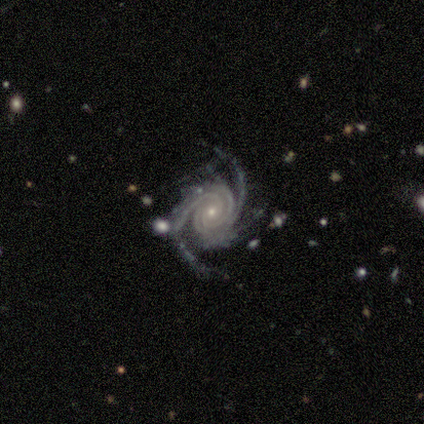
smooth-or-featured: featured or disk: 100% | smooth: 0% | star or artifact: 0%
  disk-edge-on: no: 100% | yes: 0%
    bar: no: 50% | strong: 25% | weak: 25%
    has-spiral-arms: yes: 100% | no: 0%
      spiral-winding: tight: 100% | medium: 0% | loose: 0%
      spiral-arm-count: 3: 50% | 2: 25% | 4: 25% | 1: 0% | more than 4: 0% | can't tell: 0%
    bulge-size: small: 100% | dominant: 0% | large: 0% | moderate: 0% | none: 0%
  merging: none: 100% | minor disturbance: 0% | major disturbance: 0% | merger: 0%